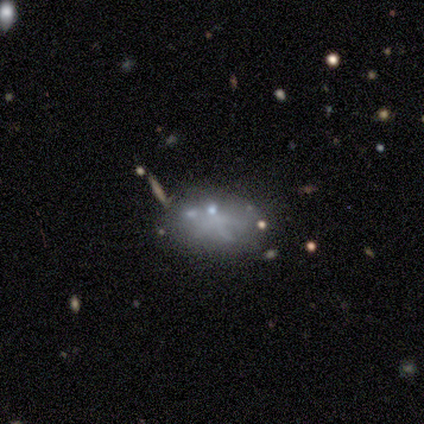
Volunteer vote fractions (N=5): Overall: smooth (80%). How rounded: in between (100%). Merging: none (60%; minor disturbance 20%).